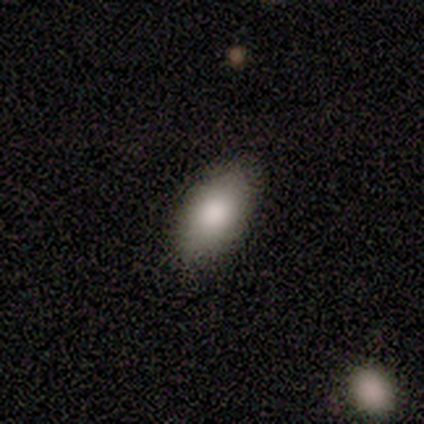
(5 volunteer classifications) Morphology: type=smooth (80%); roundness=in between (50%); merging=none (100%).